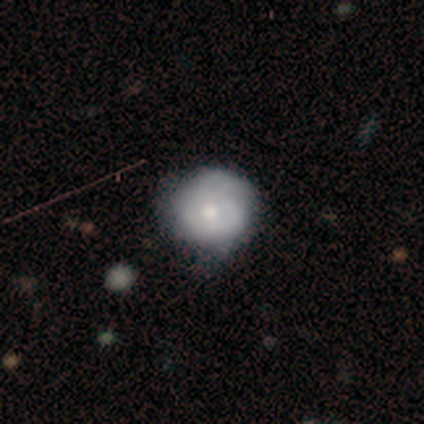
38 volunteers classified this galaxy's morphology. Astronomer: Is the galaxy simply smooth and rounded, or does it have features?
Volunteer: featured or disk — 55% (runner-up: smooth, 39%).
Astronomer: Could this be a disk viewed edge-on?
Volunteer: no — 100%.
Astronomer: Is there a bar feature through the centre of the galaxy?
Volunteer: no — 100%.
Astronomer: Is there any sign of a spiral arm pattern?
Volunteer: no — 52% (runner-up: yes, 48%).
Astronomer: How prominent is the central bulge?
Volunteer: moderate — 81%.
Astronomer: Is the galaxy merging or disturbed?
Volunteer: none — 33%, tied with minor disturbance at 33%.